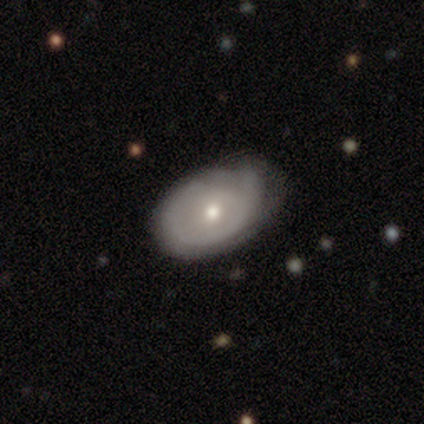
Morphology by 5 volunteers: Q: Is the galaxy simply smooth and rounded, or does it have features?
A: featured or disk — 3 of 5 (60%).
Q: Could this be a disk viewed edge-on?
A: no — 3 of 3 (100%).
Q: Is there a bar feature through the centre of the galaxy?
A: no — 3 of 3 (100%).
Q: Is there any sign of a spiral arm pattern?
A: no — 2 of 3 (67%).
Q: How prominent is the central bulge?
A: moderate — 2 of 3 (67%).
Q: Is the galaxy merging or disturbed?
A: none — 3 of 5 (60%).